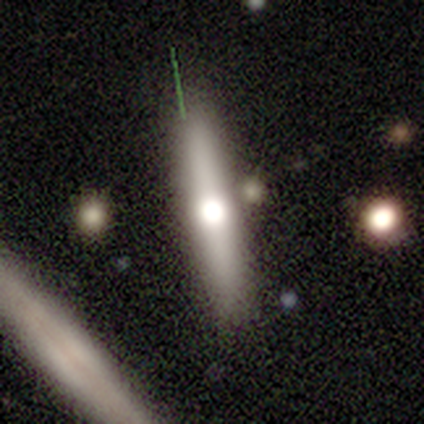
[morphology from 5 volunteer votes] Smooth or featured? 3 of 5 (60%) said smooth. How rounded? 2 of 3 (67%) said cigar-shaped. Merging? 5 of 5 (100%) said none.